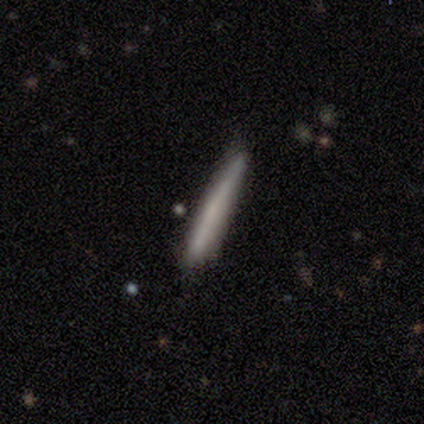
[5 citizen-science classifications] Overall: featured or disk (60%; smooth 40%). Edge-on disk: yes (100%). Edge-on bulge: none (67%; boxy 33%). Merging: none (60%; minor disturbance 40%).